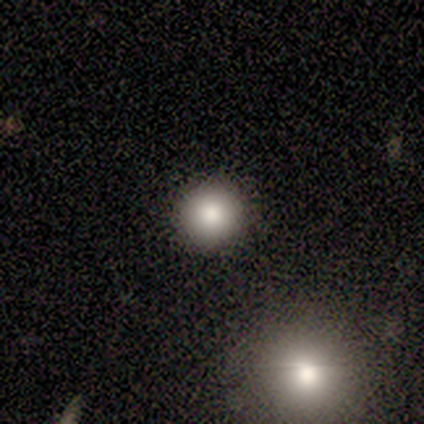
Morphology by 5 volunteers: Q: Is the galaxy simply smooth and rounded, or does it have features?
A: smooth — 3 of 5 (60%).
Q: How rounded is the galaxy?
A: round — 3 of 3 (100%).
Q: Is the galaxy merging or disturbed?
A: none — 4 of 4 (100%).